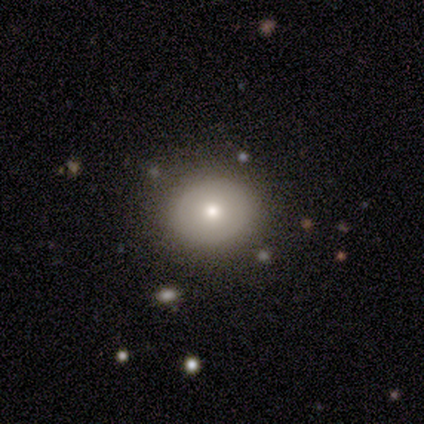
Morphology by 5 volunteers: smooth 80%, star or artifact 20%, featured or disk 0%. Down the decision tree: how rounded — round (50%, tied with in between); merging — none (75%).